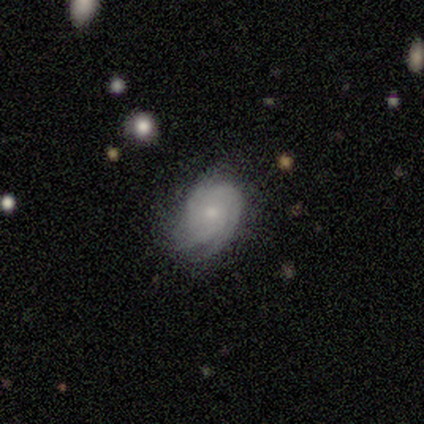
A smooth galaxy with no disk features (50%, tied with featured or disk) that is round (50%, tied with in between). Merging: none (50%, tied with minor disturbance).